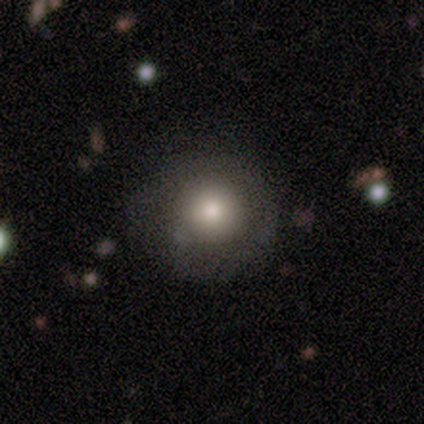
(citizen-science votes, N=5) A smooth galaxy with no disk features (100%) that is round (100%).

Vote fractions:
- Smooth or featured? smooth: 100% / featured or disk: 0% / star or artifact: 0%
- How rounded? round: 100% / in between: 0% / cigar-shaped: 0%
- Merging? none: 80% / minor disturbance: 20% / major disturbance: 0% / merger: 0%